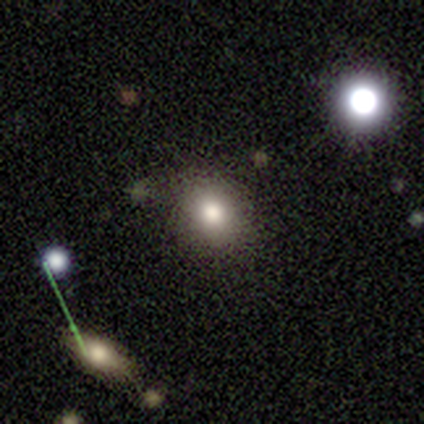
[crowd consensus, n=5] smooth-or-featured: smooth: 80% | star or artifact: 20% | featured or disk: 0%
  how-rounded: round: 75% | in between: 25% | cigar-shaped: 0%
  merging: none: 100% | minor disturbance: 0% | major disturbance: 0% | merger: 0%